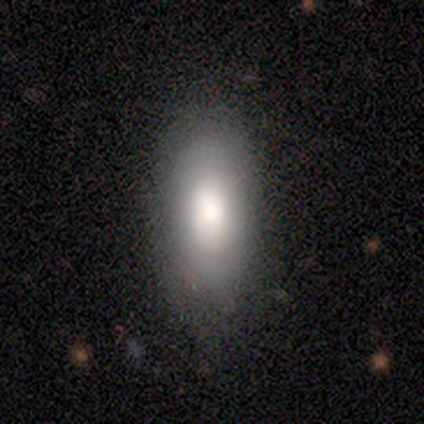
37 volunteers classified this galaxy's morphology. smooth 86%, featured or disk 8%, star or artifact 5%. Down the decision tree: how rounded — in between (84%); merging — none (74%).